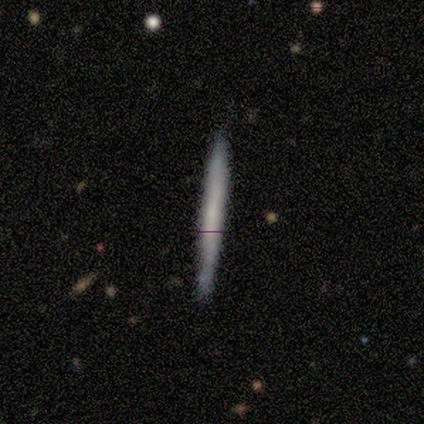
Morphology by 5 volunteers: Smooth or featured? smooth (60%)
How rounded? cigar-shaped (100%)
Merging? none (100%)